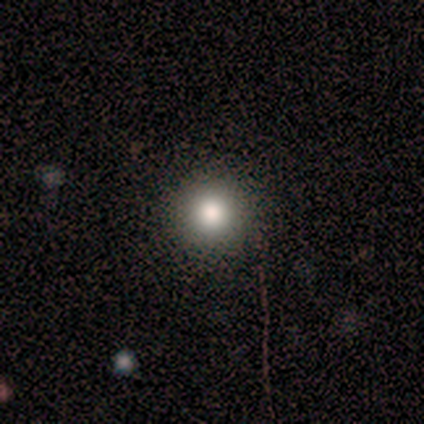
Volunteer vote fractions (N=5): Morphology: type=smooth (60%); roundness=round (100%); merging=none (100%).